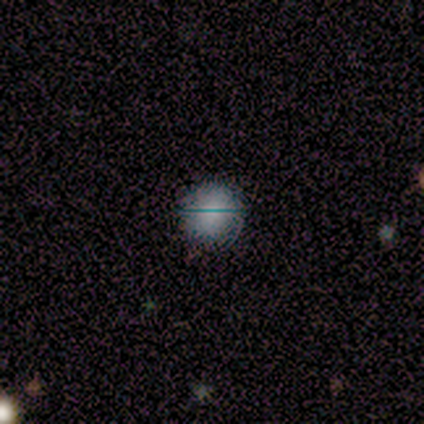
Smooth or featured? smooth (62%)
How rounded? round (96%)
Merging? none (90%)